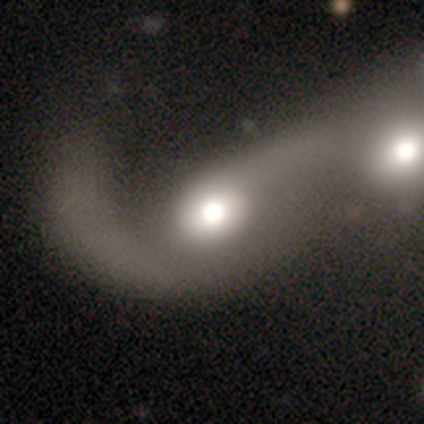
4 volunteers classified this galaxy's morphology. smooth-or-featured: smooth: 50% (tied) | featured or disk: 50% (tied) | star or artifact: 0%
  how-rounded: round: 100% | in between: 0% | cigar-shaped: 0%
  merging: merger: 75% | major disturbance: 25% | none: 0% | minor disturbance: 0%